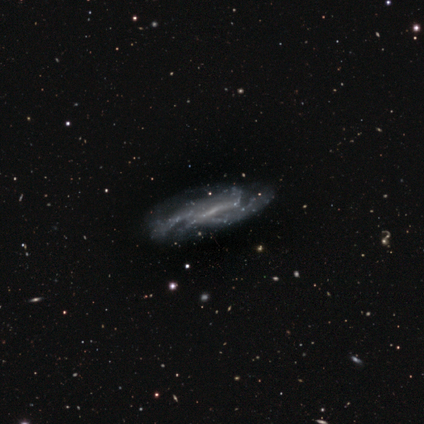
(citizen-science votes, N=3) smooth_or_featured: featured or disk (p=1.00)
disk_edge_on: no (p=1.00)
bar: weak (p=0.67) [alt: strong p=0.33]
has_spiral_arms: yes (p=1.00)
spiral_winding: medium (p=0.67) [alt: tight p=0.33]
spiral_arm_count: 3 (p=0.67) [alt: 2 p=0.33]
bulge_size: small (p=1.00)
merging: none (p=1.00)